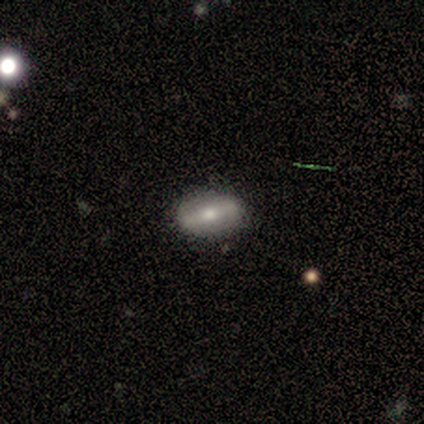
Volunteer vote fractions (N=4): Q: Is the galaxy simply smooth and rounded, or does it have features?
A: featured or disk — 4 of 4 (100%).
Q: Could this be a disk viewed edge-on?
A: no — 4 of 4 (100%).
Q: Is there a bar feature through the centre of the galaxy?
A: strong — 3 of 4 (75%).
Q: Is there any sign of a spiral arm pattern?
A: no — 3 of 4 (75%).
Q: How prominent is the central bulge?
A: large — 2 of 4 (50%, tied with moderate).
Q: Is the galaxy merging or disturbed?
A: none — 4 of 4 (100%).